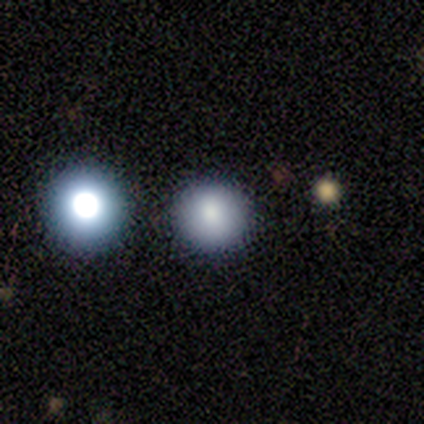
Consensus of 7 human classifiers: Morphology: type=smooth (57%); roundness=round (100%); merging=none (100%).